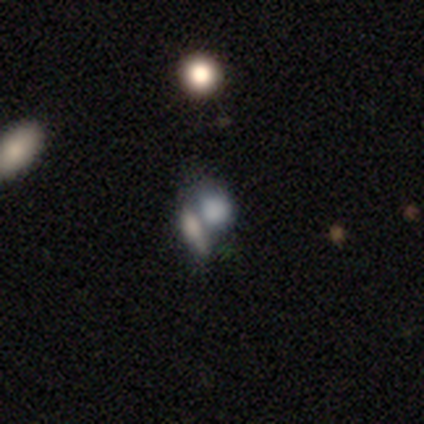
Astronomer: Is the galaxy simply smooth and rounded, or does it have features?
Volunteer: smooth — 40%, tied with star or artifact at 40%.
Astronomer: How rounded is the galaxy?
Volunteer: round — 100%.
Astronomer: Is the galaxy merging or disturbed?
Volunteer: merger — 100%.